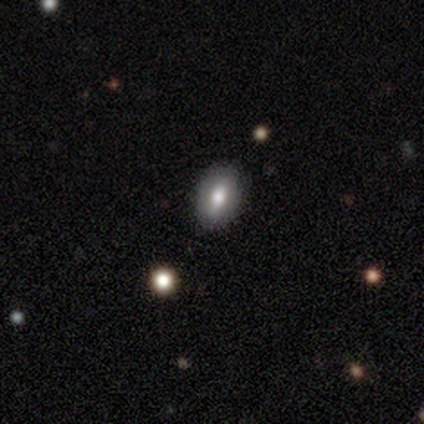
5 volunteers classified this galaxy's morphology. This is clearly a smooth galaxy (80%). How rounded: likely in between (75%). Merging: clearly none (80%).